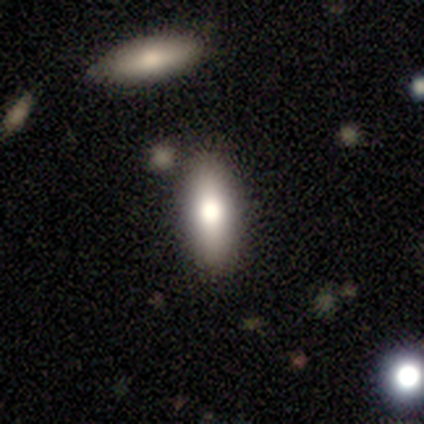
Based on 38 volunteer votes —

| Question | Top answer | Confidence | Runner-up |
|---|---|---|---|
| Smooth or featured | smooth | 74% | featured or disk (16%) |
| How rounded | in between | 71% | cigar-shaped (29%) |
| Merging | none | 79% | minor disturbance (12%) |